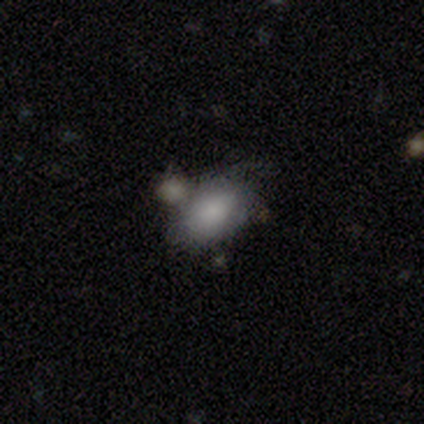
Overall: smooth (80%). How rounded: in between (100%). Merging: none (40%, tied with merger).